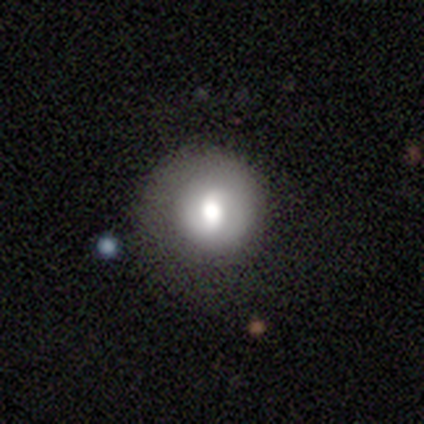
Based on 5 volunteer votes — Smooth or featured? 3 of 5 (60%) said smooth. How rounded? 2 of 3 (67%) said in between. Merging? 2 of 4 (50%, tied with major disturbance) said none.